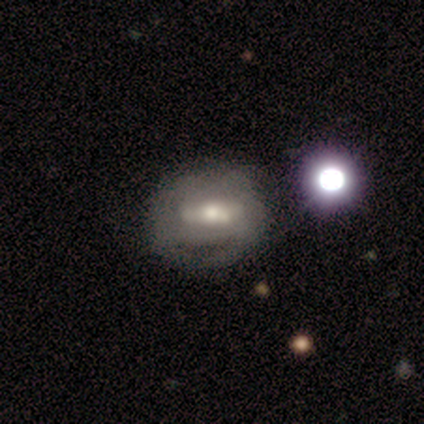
featured or disk 80%, smooth 20%, star or artifact 0%. Down the decision tree: edge-on disk — no (100%); bar — strong (75%); spiral arms — yes (100%); spiral arm count — can't tell (75%); spiral winding — tight (75%); bulge size — large (75%); merging — none (80%).